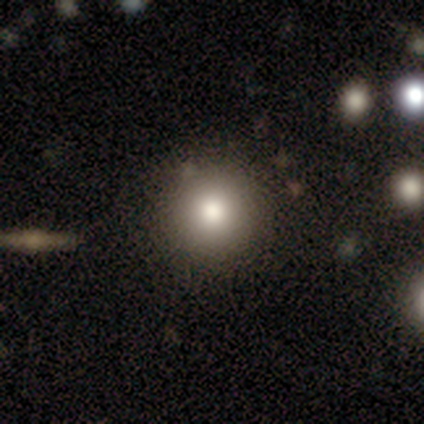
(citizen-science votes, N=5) Smooth or featured: smooth — 80% (star or artifact — 20%)
How rounded: round — 100%
Merging: none — 100%